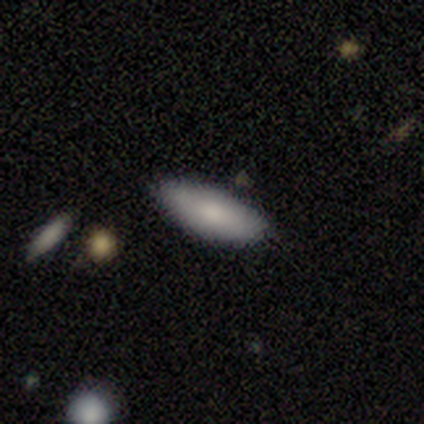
Morphology: type=smooth (88%); roundness=in between (71%); merging=none (57%).